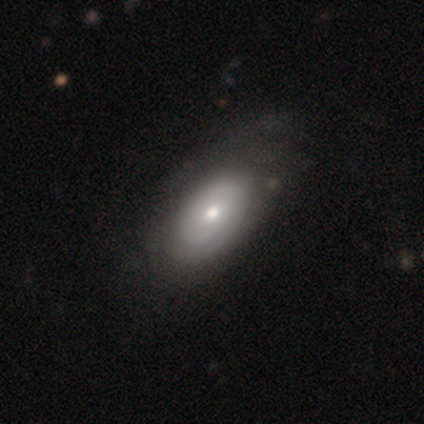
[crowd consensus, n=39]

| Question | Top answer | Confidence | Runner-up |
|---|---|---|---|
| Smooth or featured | featured or disk | 62% | smooth (38%) |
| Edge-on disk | no | 100% | — |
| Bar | no | 79% | weak (21%) |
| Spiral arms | yes | 79% | no (21%) |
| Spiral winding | tight | 79% | medium (16%) |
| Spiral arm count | can't tell | 58% | 2 (37%) |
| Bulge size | moderate | 62% | small (33%) |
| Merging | none | 49% | minor disturbance (18%) |